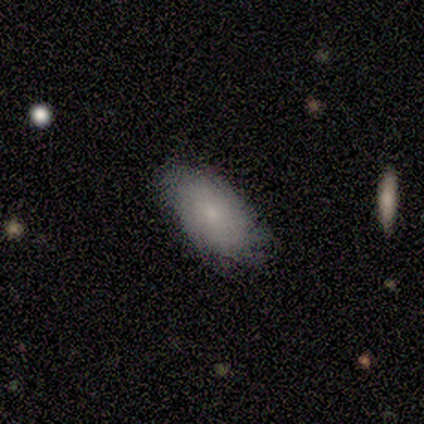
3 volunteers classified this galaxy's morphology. smooth 100%, featured or disk 0%, star or artifact 0%. Down the decision tree: how rounded — in between (100%); merging — minor disturbance (67%).